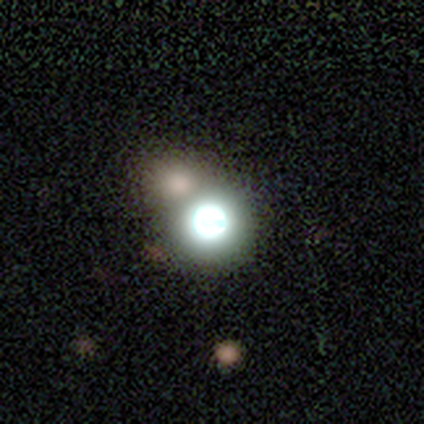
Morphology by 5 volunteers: A featured or disk galaxy (40%, tied with star or artifact) viewed edge-on (50%, tied with no) with a rounded central bulge (100%). Merging: merger (67%).